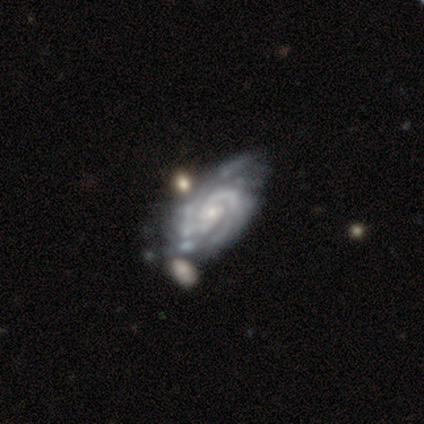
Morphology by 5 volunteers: Smooth or featured? 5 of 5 (100%) said featured or disk. Edge-on disk? 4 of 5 (80%) said no. Bar? 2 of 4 (50%) said no. Spiral arms? 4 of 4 (100%) said yes. Spiral winding? 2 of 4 (50%, tied with medium) said tight. Spiral arm count? 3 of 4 (75%) said 2. Bulge size? 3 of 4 (75%) said small. Merging? 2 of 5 (40%, tied with merger) said minor disturbance.